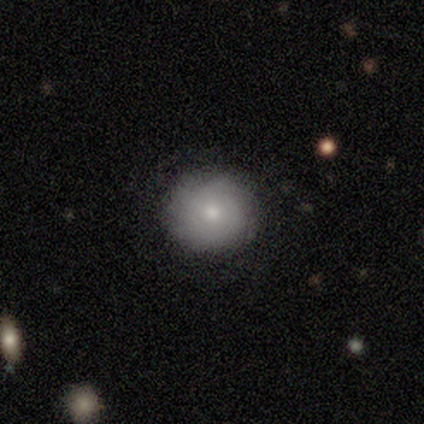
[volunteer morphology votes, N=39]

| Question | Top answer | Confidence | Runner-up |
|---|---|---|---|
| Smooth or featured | smooth | 56% | featured or disk (44%) |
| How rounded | round | 86% | in between (14%) |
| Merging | none | 87% | minor disturbance (8%) |